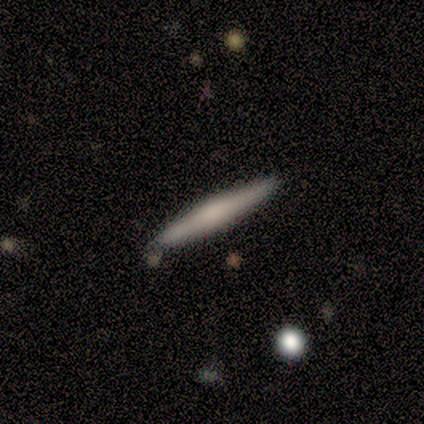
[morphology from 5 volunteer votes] Smooth or featured? smooth (60%)
How rounded? cigar-shaped (100%)
Merging? none (100%)